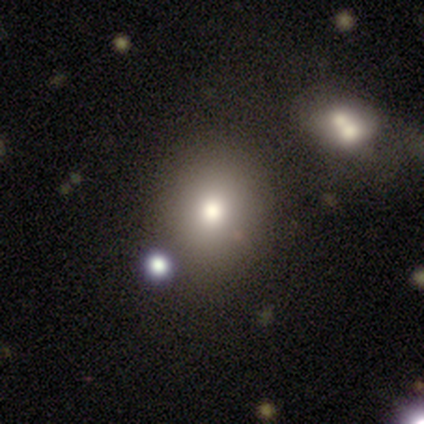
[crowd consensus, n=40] A smooth galaxy with no disk features (65%) that is round (62%).

Vote fractions:
- Smooth or featured? smooth: 65% / star or artifact: 20% / featured or disk: 15%
- How rounded? round: 62% / in between: 38% / cigar-shaped: 0%
- Merging? none: 75% / merger: 16% / major disturbance: 6% / minor disturbance: 3%